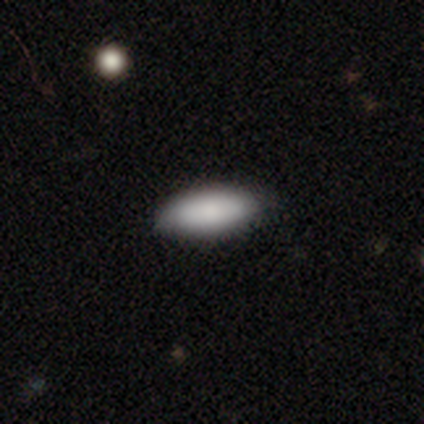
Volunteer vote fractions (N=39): Smooth or featured? smooth (92%)
How rounded? in between (72%)
Merging? none (47%)